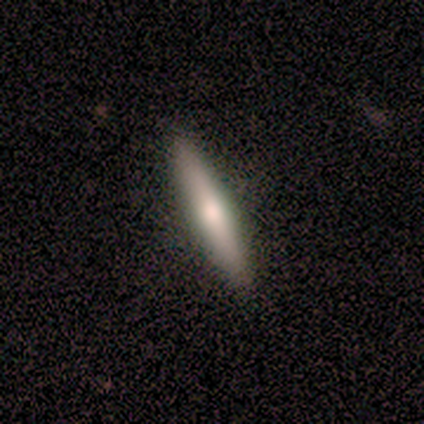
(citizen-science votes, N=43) Smooth or featured: featured or disk — 53% (smooth — 42%)
Edge-on disk: yes — 96% (no — 4%)
Edge-on bulge: rounded — 68% (none — 27%)
Merging: none — 88% (minor disturbance — 12%)